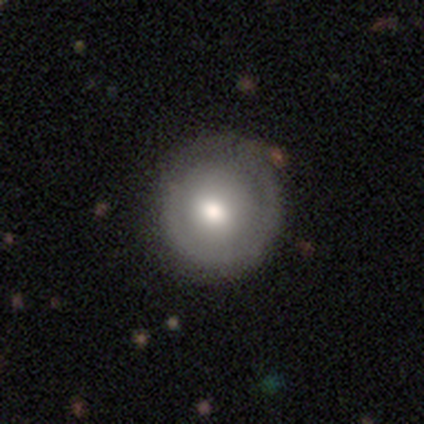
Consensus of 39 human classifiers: smooth_or_featured: smooth (p=0.69) [alt: featured or disk p=0.31]
how_rounded: round (p=1.00)
merging: none (p=0.77) [alt: minor disturbance p=0.13]